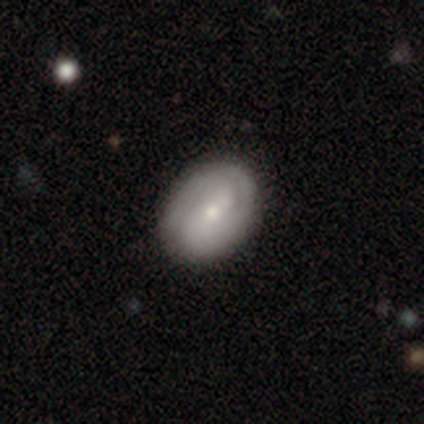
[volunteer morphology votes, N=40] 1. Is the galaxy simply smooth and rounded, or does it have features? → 72% featured or disk, 25% smooth, 2% star or artifact.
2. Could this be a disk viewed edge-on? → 100% no, 0% yes.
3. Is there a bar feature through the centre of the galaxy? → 41% weak, 31% no, 28% strong.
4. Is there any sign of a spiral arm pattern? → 90% yes, 10% no.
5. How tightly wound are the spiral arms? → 58% tight, 27% medium, 15% loose.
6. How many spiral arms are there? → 65% 2, 23% can't tell, 8% 1, 4% 3, 0% 4, 0% more than 4.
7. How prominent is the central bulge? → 45% moderate (tied), 45% small (tied), 7% large, 3% none, 0% dominant.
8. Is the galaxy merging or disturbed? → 64% none, 8% minor disturbance, 3% major disturbance, 0% merger.